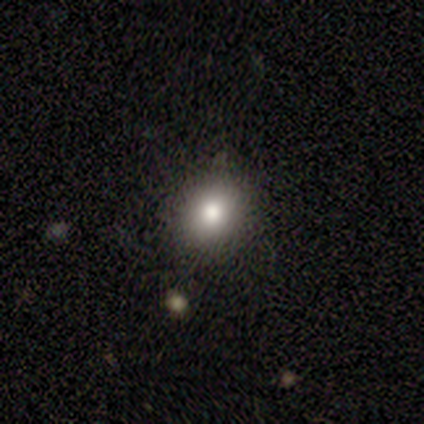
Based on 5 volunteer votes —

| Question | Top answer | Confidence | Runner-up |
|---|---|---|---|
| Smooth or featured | smooth | 80% | star or artifact (20%) |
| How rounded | round | 100% | — |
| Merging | none | 75% | minor disturbance (25%) |